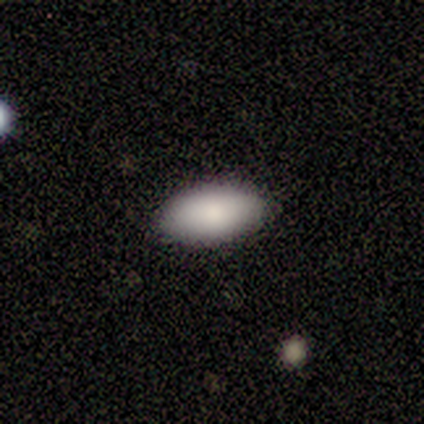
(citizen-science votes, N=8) This is clearly a smooth galaxy (100%). How rounded: clearly in between (100%). Merging: clearly none (88%).